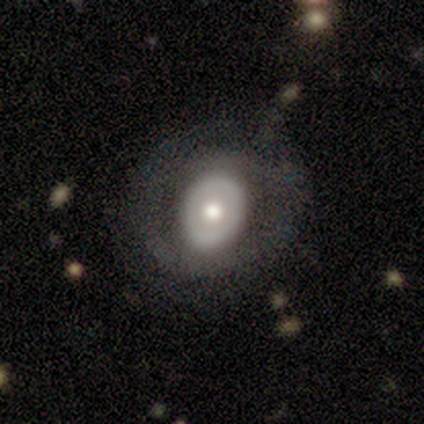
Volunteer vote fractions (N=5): Smooth or featured: featured or disk — 60% (smooth — 40%)
Edge-on disk: no — 100%
Bar: no — 100%
Spiral arms: no — 67% (yes — 33%)
Bulge size: moderate — 100%
Merging: none — 100%